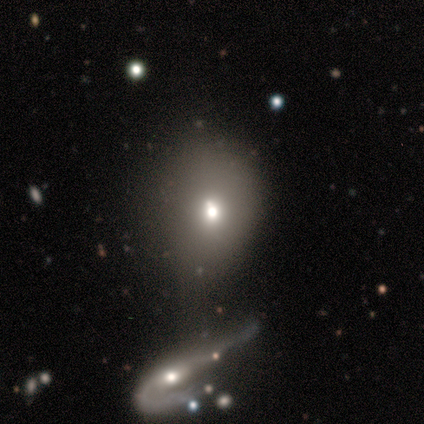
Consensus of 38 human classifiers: Smooth or featured: smooth — 66% (featured or disk — 24%)
How rounded: round — 56% (in between — 44%)
Merging: none — 41% (minor disturbance — 29%)